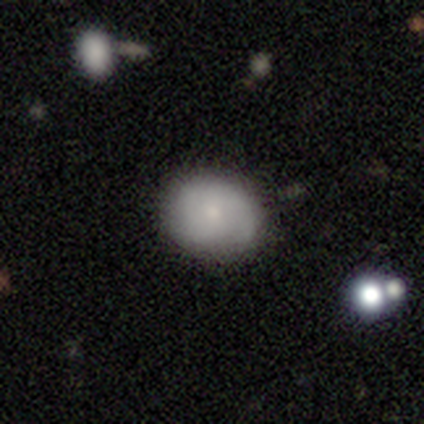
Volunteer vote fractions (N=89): Smooth or featured? 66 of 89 (74%) said smooth. How rounded? 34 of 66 (52%) said in between. Merging? 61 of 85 (72%) said none.